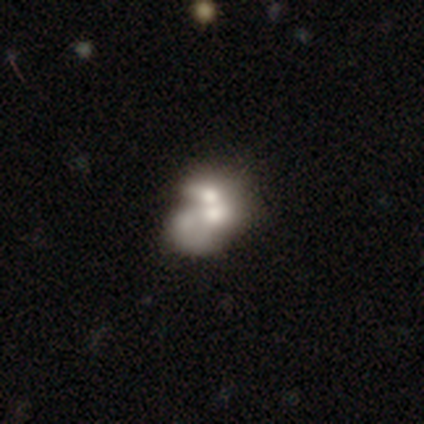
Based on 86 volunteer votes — smooth_or_featured: smooth (p=0.44) [tied with: featured or disk p=0.44]
how_rounded: in between (p=0.63) [alt: round p=0.37]
merging: merger (p=0.71) [alt: none p=0.16]